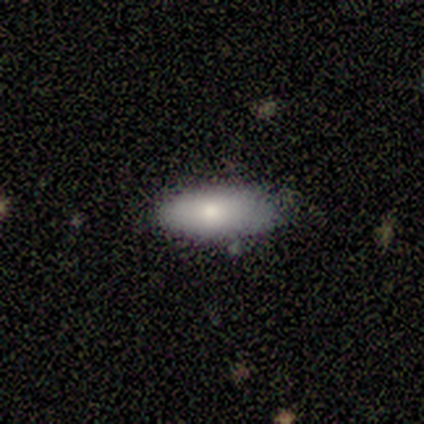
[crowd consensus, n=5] Smooth or featured? 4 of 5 (80%) said smooth. How rounded? 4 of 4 (100%) said in between. Merging? 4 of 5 (80%) said none.